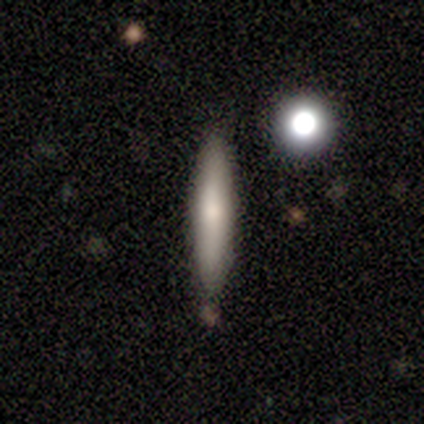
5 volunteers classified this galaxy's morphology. Volunteers were most divided on "smooth or featured": featured or disk: 60%, smooth: 40%, star or artifact: 0%. More confident: edge-on disk — yes (100%); merging — none (100%); edge-on bulge — rounded (67%).